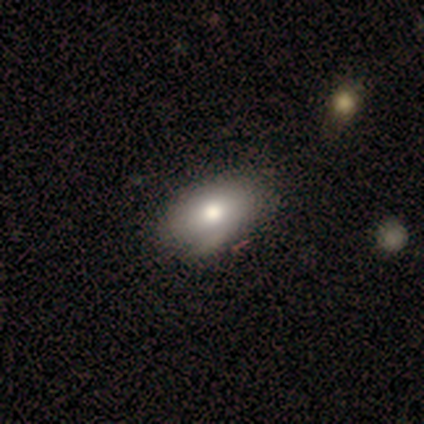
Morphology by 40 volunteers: Smooth or featured? smooth (90%)
How rounded? in between (92%)
Merging? none (42%)